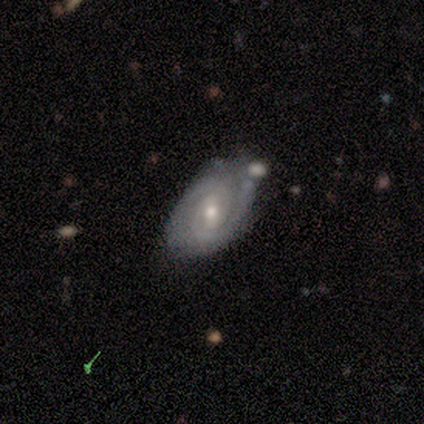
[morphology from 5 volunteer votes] Smooth or featured: featured or disk — 80% (smooth — 20%)
Edge-on disk: no — 100%
Bar: weak — 75% (no — 25%)
Spiral arms: yes — 100%
Spiral winding: tight — 100%
Spiral arm count: 2 — 50% (tied with 3 — 50%)
Bulge size: moderate — 75% (small — 25%)
Merging: none — 60% (minor disturbance — 40%)